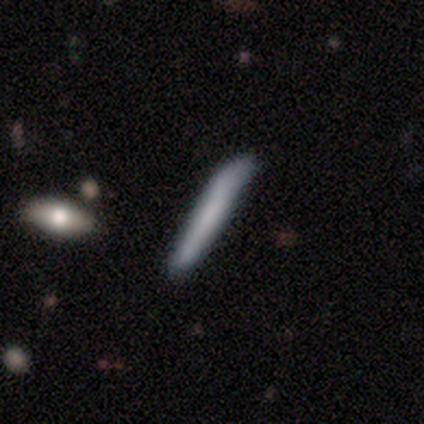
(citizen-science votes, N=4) This is possibly a smooth galaxy (50%). How rounded: clearly cigar-shaped (100%). Merging: likely none (67%).